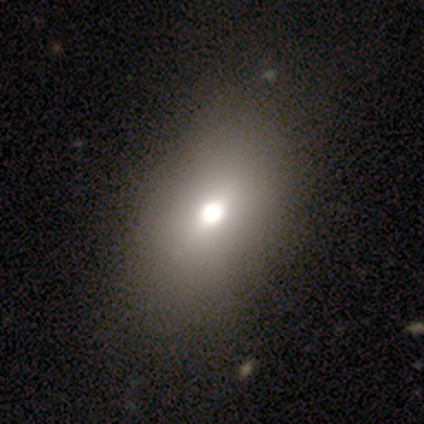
Morphology: type=smooth (80%); roundness=in between (75%); merging=minor disturbance (60%).